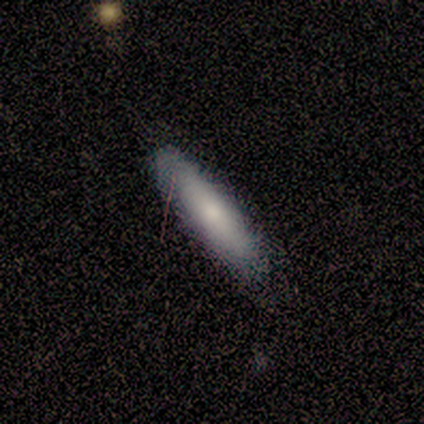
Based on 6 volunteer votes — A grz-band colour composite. It shows a smooth galaxy with no disk features (67%) that is cigar-shaped (75%). Merging: none (80%).